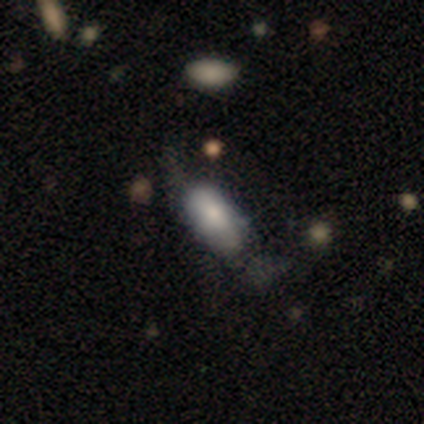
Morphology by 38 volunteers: Smooth or featured? 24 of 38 (63%) said smooth. How rounded? 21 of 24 (88%) said in between. Merging? 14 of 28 (50%) said none.